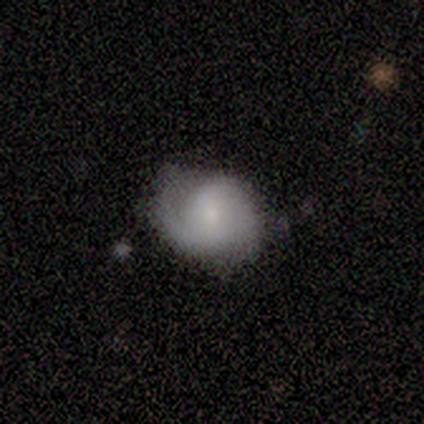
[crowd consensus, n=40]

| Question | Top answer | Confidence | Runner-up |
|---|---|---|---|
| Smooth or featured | featured or disk | 55% | smooth (38%) |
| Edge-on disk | no | 100% | — |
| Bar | no | 59% | weak (36%) |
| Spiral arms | yes | 95% | no (5%) |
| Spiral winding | medium | 48% | tight (43%) |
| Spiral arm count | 2 | 81% | 1 (10%) |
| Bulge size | moderate | 55% | small (27%) |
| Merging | none | 57% | minor disturbance (35%) |